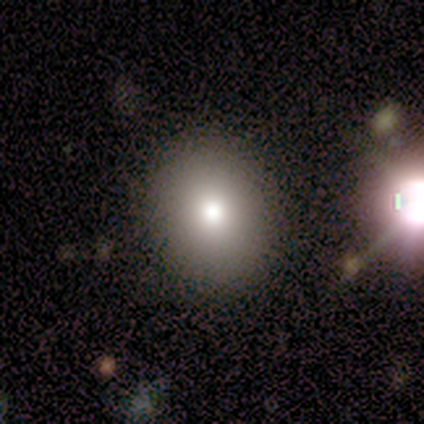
Q: Smooth or featured?
A: smooth (80%); runner-up: star or artifact (20%)
Q: How rounded?
A: round (50%); tied with: in between (50%)
Q: Merging?
A: none (100%)